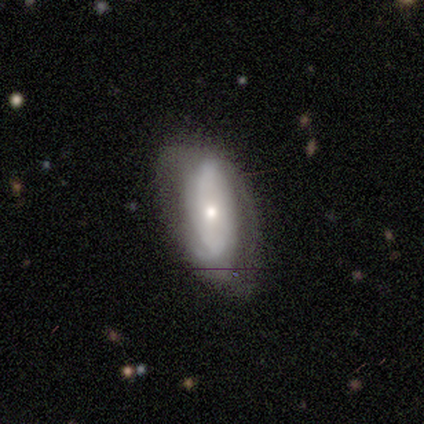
This is likely a smooth galaxy (60%). How rounded: clearly in between (100%). Merging: possibly none (50%, tied with minor disturbance).